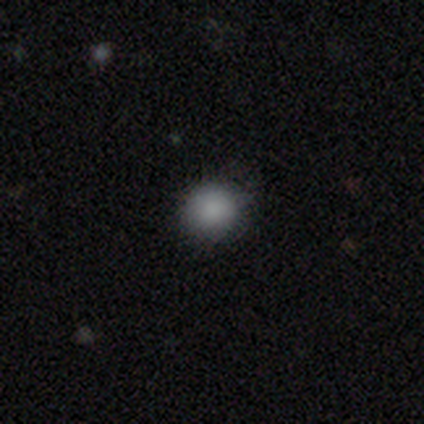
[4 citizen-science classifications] This appears to be a smooth galaxy with no disk features (100%) that is round (100%). Merging: none (100%).